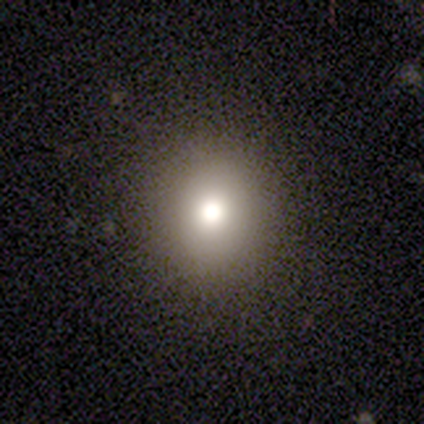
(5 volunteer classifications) Smooth or featured? smooth (80%)
How rounded? round (100%)
Merging? none (100%)